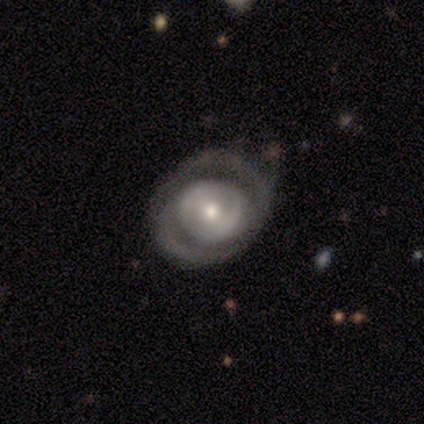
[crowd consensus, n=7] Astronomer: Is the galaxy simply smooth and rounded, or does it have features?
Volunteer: featured or disk — 86%.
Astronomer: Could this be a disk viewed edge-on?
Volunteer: no — 100%.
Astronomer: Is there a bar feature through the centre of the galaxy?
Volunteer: weak — 50% (runner-up: no, 33%).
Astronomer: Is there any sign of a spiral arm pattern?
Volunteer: yes — 67%.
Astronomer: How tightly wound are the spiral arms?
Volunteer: medium — 50%, tied with loose at 50%.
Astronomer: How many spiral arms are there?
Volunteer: can't tell — 50%.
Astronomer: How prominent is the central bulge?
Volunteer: small — 67%.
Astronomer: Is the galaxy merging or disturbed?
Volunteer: minor disturbance — 57% (runner-up: none, 43%).